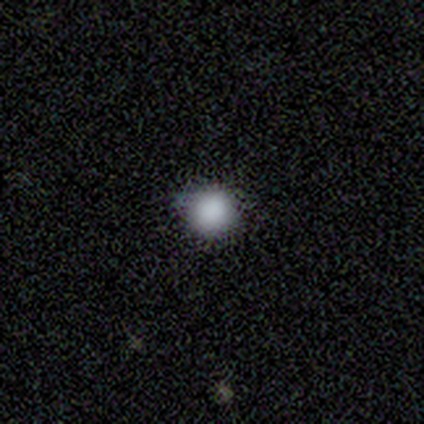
smooth 100%, featured or disk 0%, star or artifact 0%. Down the decision tree: how rounded — round (100%); merging — none (60%).